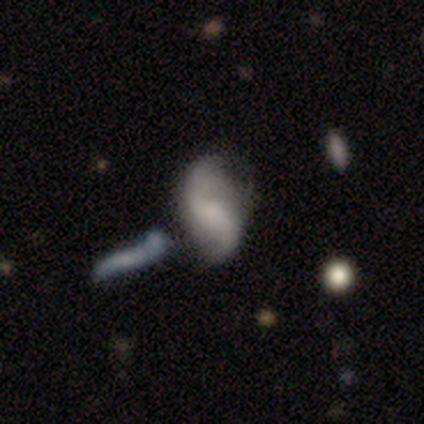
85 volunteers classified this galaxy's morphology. Smooth or featured?
  - featured or disk: 82% *
  - smooth: 14%
  - star or artifact: 4%
Edge-on disk?
  - no: 90% *
  - yes: 10%
Bar?
  - weak: 46% *
  - no: 44%
  - strong: 10%
Spiral arms?
  - yes: 89% *
  - no: 11%
Spiral winding?
  - loose: 70% *
  - medium: 25%
  - tight: 5%
Spiral arm count?
  - 2: 93% *
  - can't tell: 4%
  - 3: 2%
  - 4: 2%
  - 1: 0%
  - more than 4: 0%
Bulge size?
  - small: 38% *
  - none: 35%
  - moderate: 27%
  - dominant: 0%
  - large: 0%
Merging?
  - none: 54% *
  - merger: 22%
  - minor disturbance: 17%
  - major disturbance: 7%